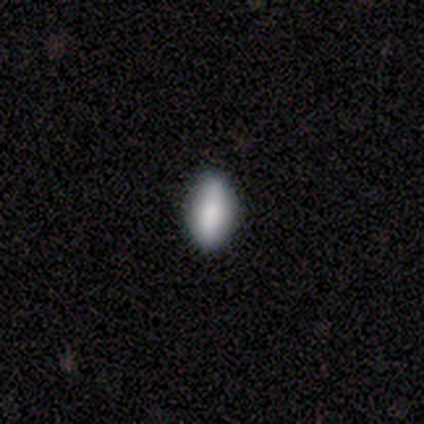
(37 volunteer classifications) Smooth or featured: smooth — 76% (featured or disk — 14%)
How rounded: in between — 89% (cigar-shaped — 7%)
Merging: none — 85% (minor disturbance — 9%)